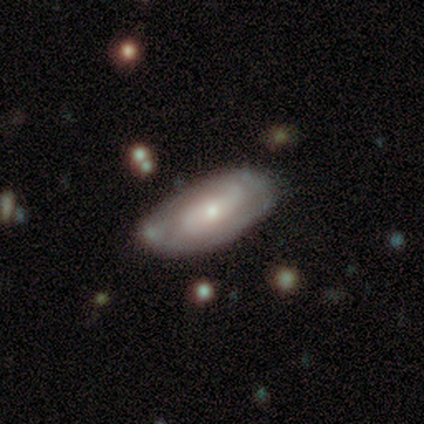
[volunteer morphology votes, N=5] A featured or disk galaxy (80%) with no bar (50%), 2 (100%) tight (33%, tied with medium and loose) spiral arms (75%) and a small central bulge (75%).

Vote fractions:
- Smooth or featured? featured or disk: 80% / smooth: 20% / star or artifact: 0%
- Edge-on disk? no: 100% / yes: 0%
- Bar? no: 50% / strong: 25% / weak: 25%
- Spiral arms? yes: 75% / no: 25%
- Spiral winding? tight: 33% (tied) / medium: 33% (tied) / loose: 33% (tied)
- Spiral arm count? 2: 100% / 1: 0% / 3: 0% / 4: 0% / more than 4: 0% / can't tell: 0%
- Bulge size? small: 75% / moderate: 25% / dominant: 0% / large: 0% / none: 0%
- Merging? none: 100% / minor disturbance: 0% / major disturbance: 0% / merger: 0%